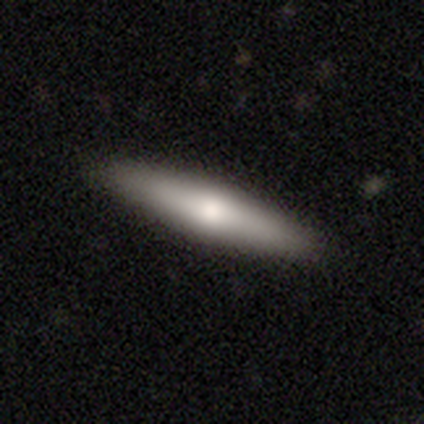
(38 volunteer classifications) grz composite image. It shows a smooth galaxy with no disk features (55%) that is cigar-shaped (81%). Merging: none (89%).